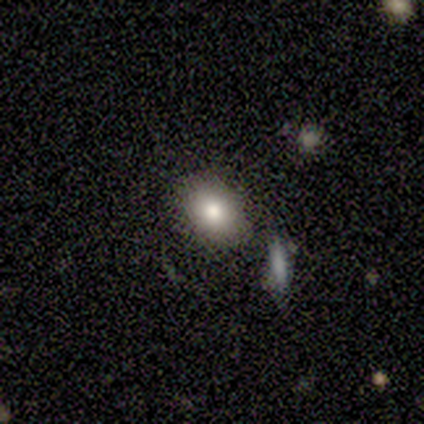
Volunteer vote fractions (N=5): This is clearly a smooth galaxy (80%). How rounded: clearly in between (100%). Merging: likely none (60%).